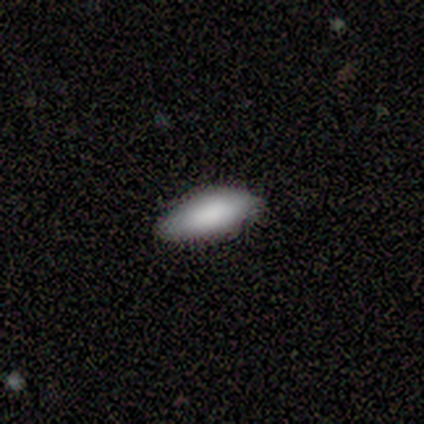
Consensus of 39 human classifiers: A smooth galaxy with no disk features (74%) that is in between round and cigar-shaped (72%).

Vote fractions:
- Smooth or featured? smooth: 74% / featured or disk: 15% / star or artifact: 10%
- How rounded? in between: 72% / cigar-shaped: 28% / round: 0%
- Merging? none: 69% / minor disturbance: 23% / major disturbance: 9% / merger: 0%